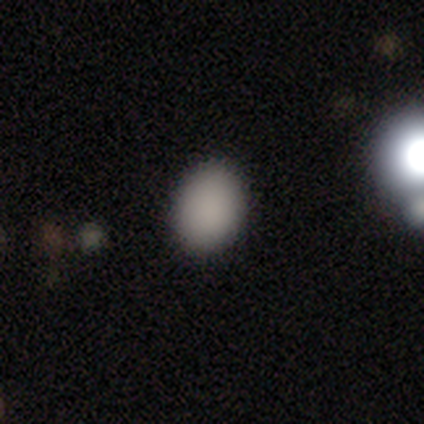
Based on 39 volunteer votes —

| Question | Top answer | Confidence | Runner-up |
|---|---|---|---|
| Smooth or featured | smooth | 92% | star or artifact (8%) |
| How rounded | in between | 67% | round (33%) |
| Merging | none | 75% | minor disturbance (14%) |